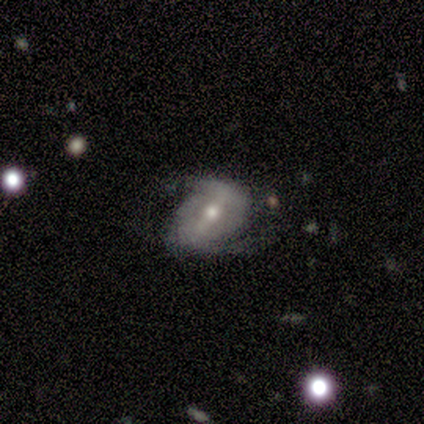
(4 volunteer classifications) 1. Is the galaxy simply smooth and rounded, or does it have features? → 75% featured or disk, 25% smooth, 0% star or artifact.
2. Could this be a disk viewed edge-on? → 100% no, 0% yes.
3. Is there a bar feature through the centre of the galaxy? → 67% strong, 33% no, 0% weak.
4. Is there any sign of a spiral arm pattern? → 100% yes, 0% no.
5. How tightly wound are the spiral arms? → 67% loose, 33% medium, 0% tight.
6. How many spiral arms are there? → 100% 2, 0% 1, 0% 3, 0% 4, 0% more than 4, 0% can't tell.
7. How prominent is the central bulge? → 100% small, 0% dominant, 0% large, 0% moderate, 0% none.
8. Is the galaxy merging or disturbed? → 50% none, 25% minor disturbance, 25% major disturbance, 0% merger.